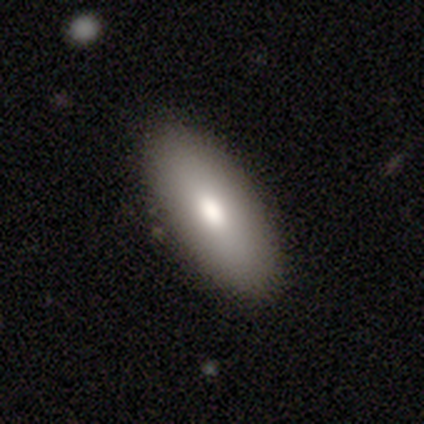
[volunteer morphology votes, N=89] Smooth or featured? smooth (70%)
How rounded? in between (87%)
Merging? none (92%)